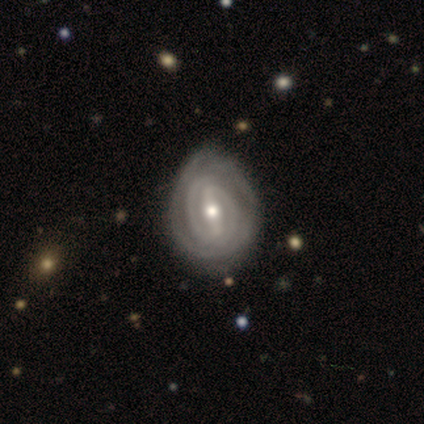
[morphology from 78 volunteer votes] Overall: featured or disk (92%). Edge-on disk: no (100%). Bar: strong (76%). Spiral arms: yes (92%). Spiral arm count: 2 (58%; can't tell 23%). Spiral winding: tight (92%). Bulge size: moderate (62%; small 33%). Merging: none (36%; minor disturbance 20%).